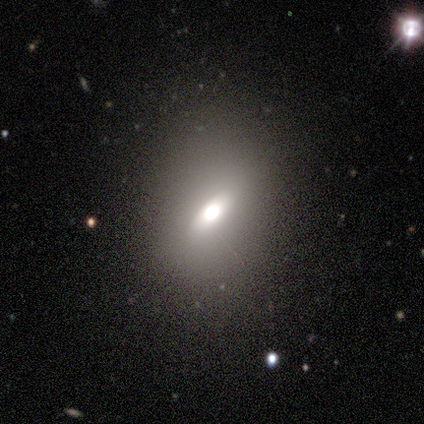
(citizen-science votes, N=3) Smooth or featured: smooth — 67% (featured or disk — 33%)
How rounded: in between — 100%
Merging: none — 67% (minor disturbance — 33%)